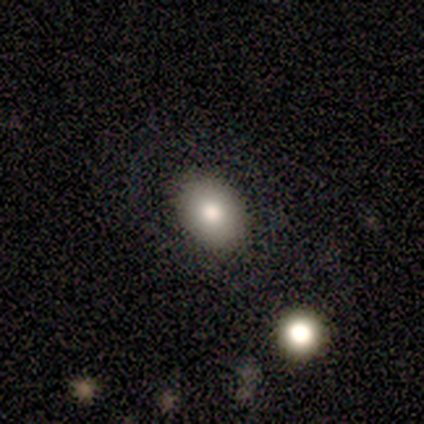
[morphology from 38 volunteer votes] Q: Smooth or featured?
A: smooth (87%); runner-up: featured or disk (8%)
Q: How rounded?
A: round (52%); runner-up: in between (48%)
Q: Merging?
A: none (92%); runner-up: minor disturbance (3%)